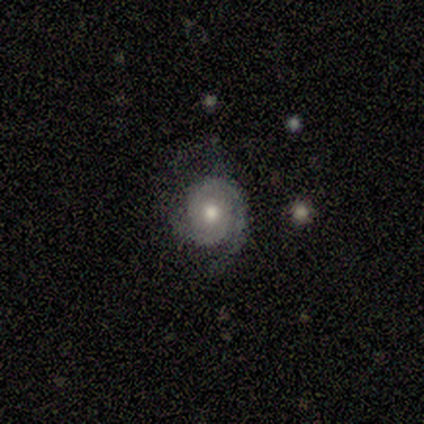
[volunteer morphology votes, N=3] Smooth or featured? featured or disk (100%)
Edge-on disk? no (100%)
Bar? no (67%)
Spiral arms? yes (100%)
Spiral winding? tight (33%, tied with medium and loose)
Spiral arm count? 2 (100%)
Bulge size? moderate (100%)
Merging? none (100%)